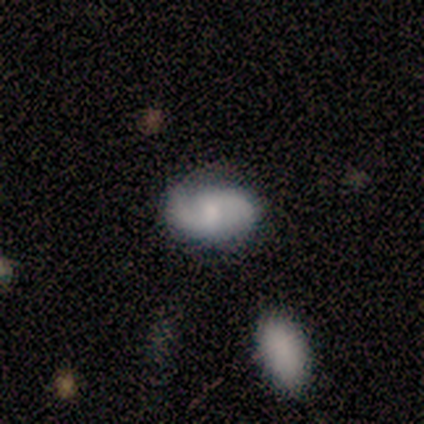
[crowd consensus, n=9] This is likely a featured or disk galaxy (67%). It is clearly not viewed edge-on (83%). Bar: clearly weak (100%). Spiral arm pattern: clearly yes (100%). Spiral arm count: clearly 2 (80%). Spiral winding: likely loose (60%). Central bulge: likely small (60%). Merging: likely none (67%).